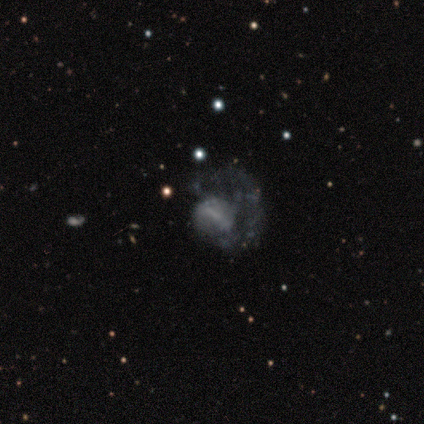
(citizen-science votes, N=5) This is clearly a featured or disk galaxy (80%). It is clearly not viewed edge-on (100%). Bar: likely weak (75%). Spiral arm pattern: likely yes (75%). Spiral arm count: clearly 1 (100%). Spiral winding: likely loose (67%). Central bulge: likely none (75%). Merging: possibly major disturbance (50%).